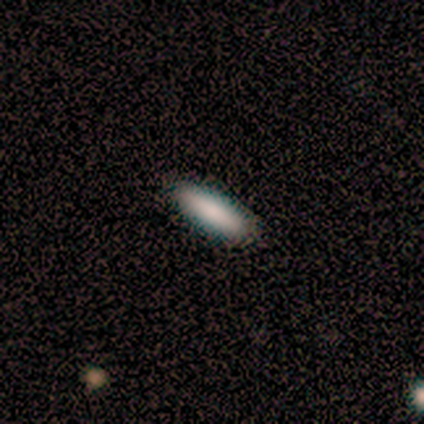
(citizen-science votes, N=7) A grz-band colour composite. It shows a smooth galaxy with no disk features (71%) that is in between round and cigar-shaped (60%). Merging: none (86%).